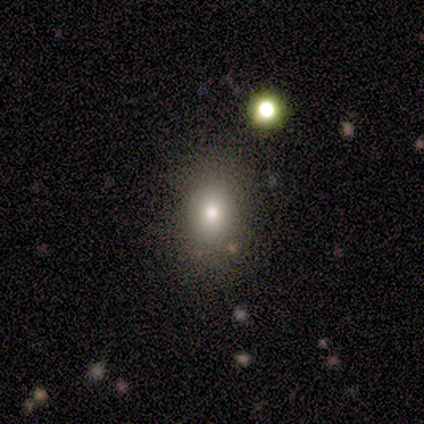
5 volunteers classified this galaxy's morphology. Smooth or featured? 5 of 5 (100%) said smooth. How rounded? 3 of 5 (60%) said in between. Merging? 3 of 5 (60%) said none.